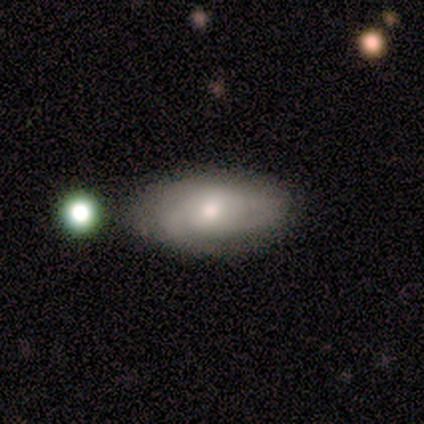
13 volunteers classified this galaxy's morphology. featured or disk 69%, smooth 31%, star or artifact 0%. Down the decision tree: edge-on disk — no (100%); bar — no (78%); spiral arms — yes (78%); spiral arm count — can't tell (100%); spiral winding — tight (43%, tied with loose); bulge size — small (44%); merging — none (77%).